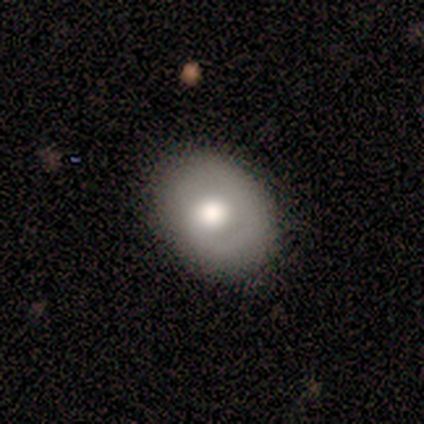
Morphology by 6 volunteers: smooth_or_featured: smooth (p=0.83) [alt: featured or disk p=0.17]
how_rounded: round (p=0.60) [alt: in between p=0.40]
merging: none (p=1.00)